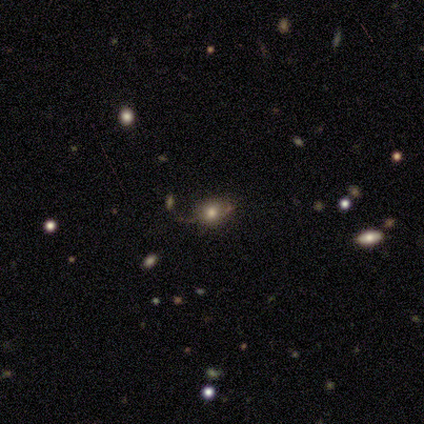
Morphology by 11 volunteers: Volunteers were most divided on "how rounded": round: 55%, in between: 45%, cigar-shaped: 0%. More confident: smooth or featured — smooth (100%); merging — none (82%).